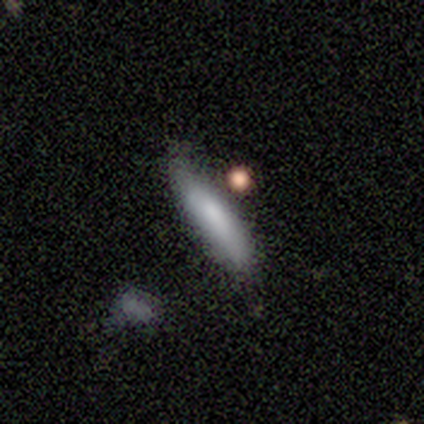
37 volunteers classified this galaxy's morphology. smooth_or_featured: smooth (p=0.92) [alt: featured or disk p=0.08]
how_rounded: cigar-shaped (p=0.88) [alt: in between p=0.12]
merging: none (p=0.68) [alt: minor disturbance p=0.19]